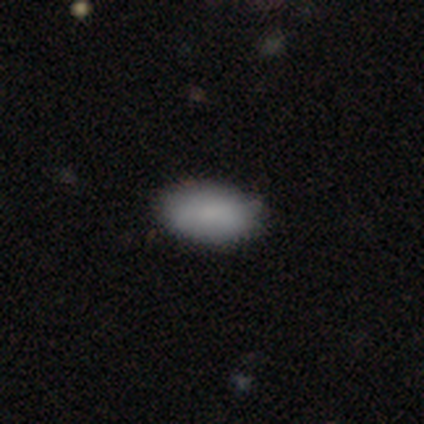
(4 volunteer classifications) A smooth galaxy with no disk features (100%) that is in between round and cigar-shaped (100%). Merging: none (100%).